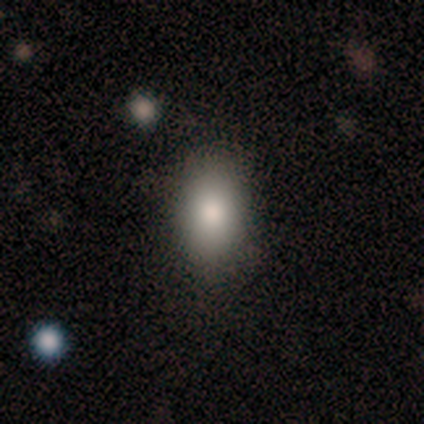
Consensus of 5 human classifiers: Smooth or featured? smooth (100%)
How rounded? in between (100%)
Merging? none (80%)